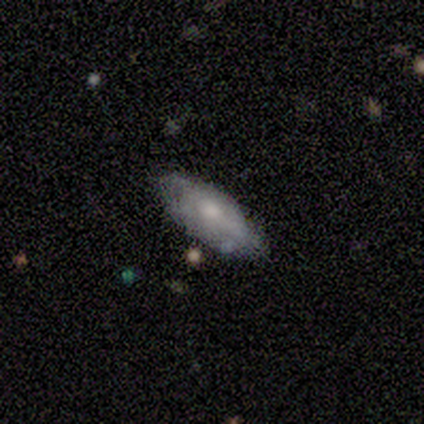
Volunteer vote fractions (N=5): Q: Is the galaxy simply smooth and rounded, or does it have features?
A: featured or disk — 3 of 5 (60%).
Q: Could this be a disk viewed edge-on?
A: no — 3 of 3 (100%).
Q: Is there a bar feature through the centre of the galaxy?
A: no — 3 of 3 (100%).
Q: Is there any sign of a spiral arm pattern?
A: yes — 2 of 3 (67%).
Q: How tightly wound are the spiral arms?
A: tight — 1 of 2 (50%, tied with medium).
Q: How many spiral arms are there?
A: can't tell — 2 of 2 (100%).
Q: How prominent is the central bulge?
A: moderate — 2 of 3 (67%).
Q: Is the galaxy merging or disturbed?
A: none — 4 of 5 (80%).